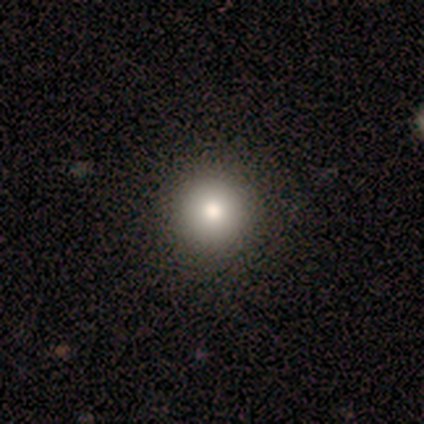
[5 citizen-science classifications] Volunteers were most divided on "smooth or featured": smooth: 60%, featured or disk: 40%, star or artifact: 0%. More confident: how rounded — round (100%); merging — none (100%).